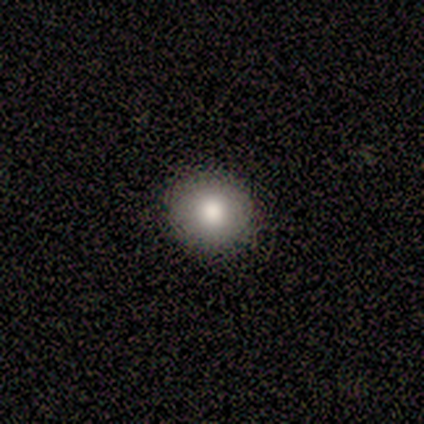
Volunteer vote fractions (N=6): Volunteers were most divided on "how rounded": round: 83%, in between: 17%, cigar-shaped: 0%. More confident: smooth or featured — smooth (100%); merging — none (100%).